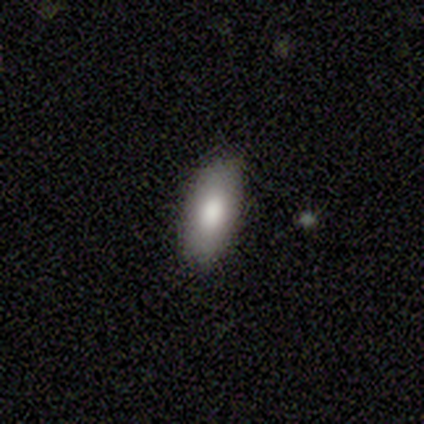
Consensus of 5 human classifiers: smooth 80%, featured or disk 20%, star or artifact 0%. Down the decision tree: how rounded — in between (50%); merging — none (60%).